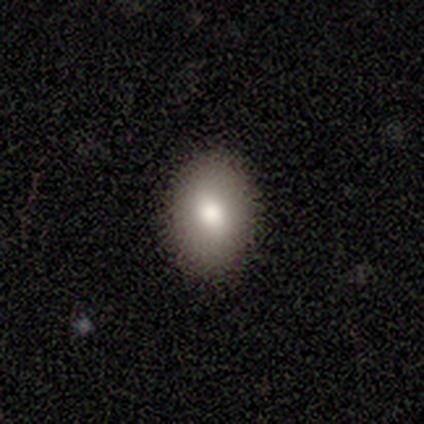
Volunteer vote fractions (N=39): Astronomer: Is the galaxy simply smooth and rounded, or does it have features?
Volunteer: smooth — 79%.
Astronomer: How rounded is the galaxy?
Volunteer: in between — 74%.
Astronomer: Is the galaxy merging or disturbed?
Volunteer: none — 92%.